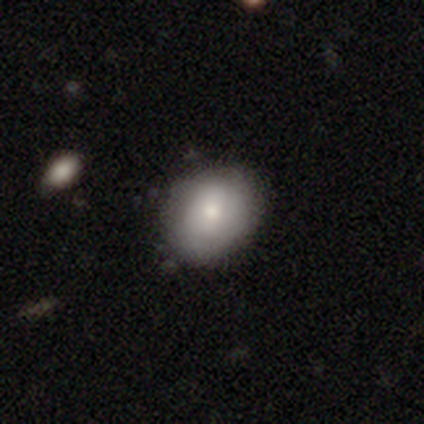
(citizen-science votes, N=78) Volunteers were most divided on "how rounded": in between: 58%, round: 42%, cigar-shaped: 0%. Remaining: smooth or featured — smooth (73%); merging — none (39%).